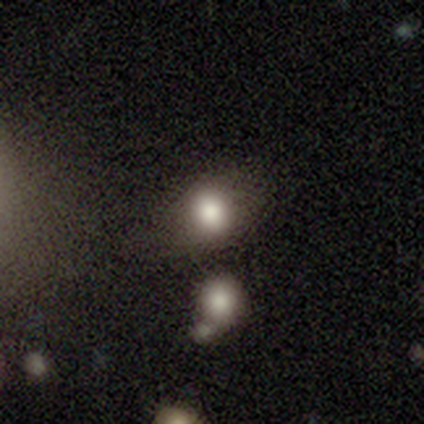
smooth-or-featured: smooth: 100% | featured or disk: 0% | star or artifact: 0%
  how-rounded: round: 80% | in between: 20% | cigar-shaped: 0%
  merging: none: 80% | merger: 20% | minor disturbance: 0% | major disturbance: 0%